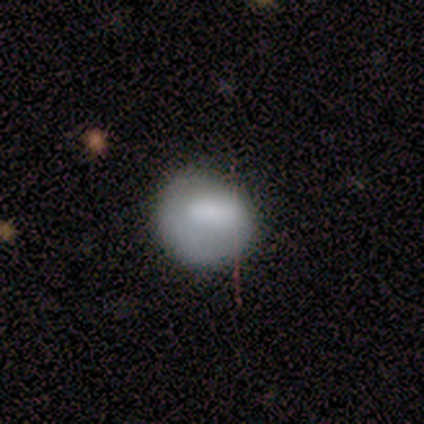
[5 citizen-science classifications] This appears to be a smooth galaxy with no disk features (80%) that is round (75%). Merging: none (80%).